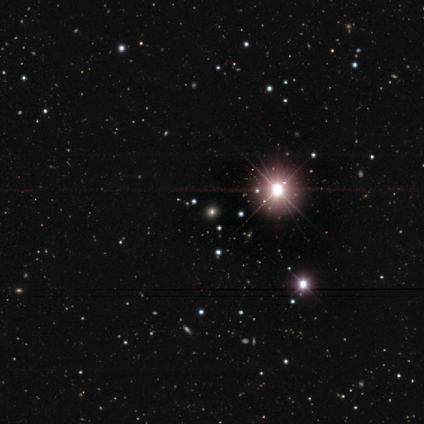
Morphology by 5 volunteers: Smooth or featured? star or artifact (80%)